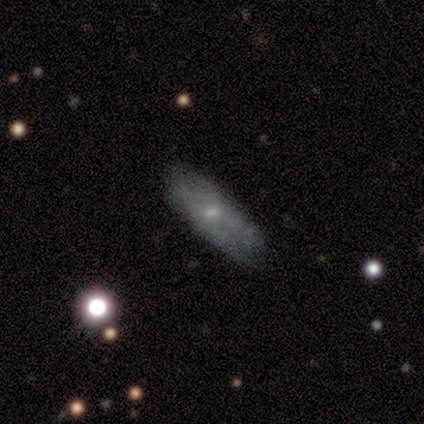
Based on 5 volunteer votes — Smooth or featured? 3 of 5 (60%) said smooth. How rounded? 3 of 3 (100%) said cigar-shaped. Merging? 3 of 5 (60%) said none.